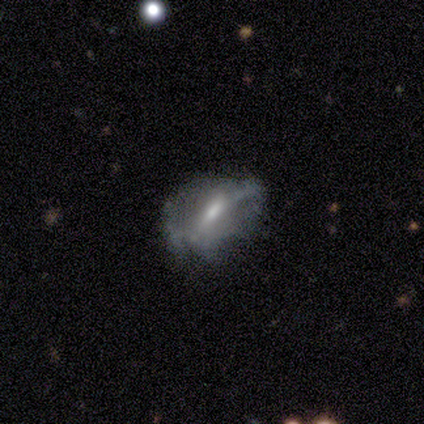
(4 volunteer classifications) Q: Smooth or featured?
A: featured or disk (75%); runner-up: smooth (25%)
Q: Edge-on disk?
A: no (100%)
Q: Bar?
A: strong (67%); runner-up: weak (33%)
Q: Spiral arms?
A: yes (100%)
Q: Spiral winding?
A: tight (33%); tied with: medium (33%); loose (33%)
Q: Spiral arm count?
A: 2 (33%); tied with: 3 (33%); can't tell (33%)
Q: Bulge size?
A: moderate (100%)
Q: Merging?
A: minor disturbance (50%); runner-up: none (25%)